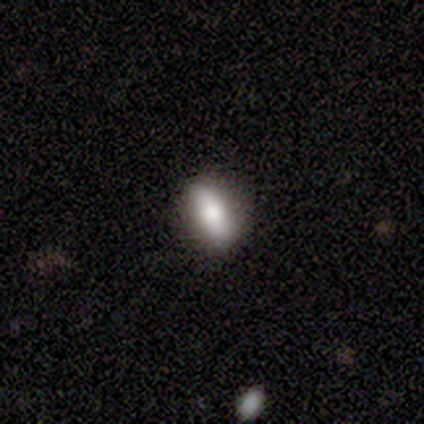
Smooth or featured? smooth (69%)
How rounded? in between (67%)
Merging? none (87%)